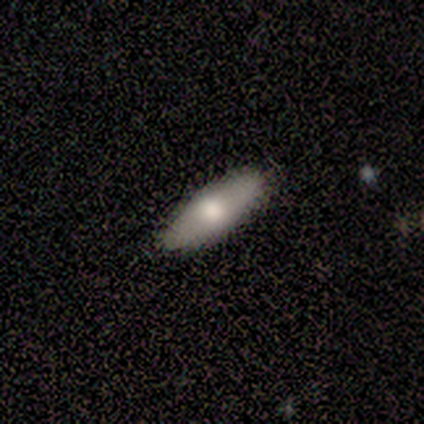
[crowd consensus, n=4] A smooth galaxy with no disk features (75%) that is cigar-shaped (100%). Merging: none (75%).